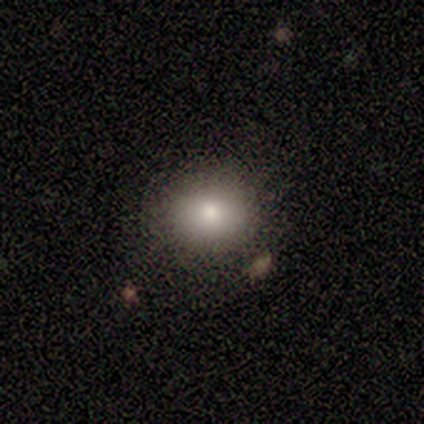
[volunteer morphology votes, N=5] This is clearly a smooth galaxy (100%). How rounded: likely round (60%). Merging: likely none (60%).